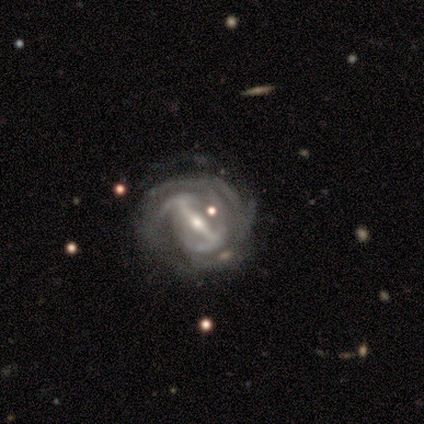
smooth-or-featured: featured or disk: 92% | star or artifact: 8% | smooth: 0%
  disk-edge-on: no: 92% | yes: 8%
    bar: strong: 82% | weak: 12% | no: 6%
    has-spiral-arms: yes: 91% | no: 9%
      spiral-winding: tight: 58% | medium: 26% | loose: 16%
      spiral-arm-count: can't tell: 52% | 2: 23% | 4: 16% | 3: 6% | 1: 3% | more than 4: 0%
    bulge-size: small: 65% | moderate: 29% | large: 6% | dominant: 0% | none: 0%
  merging: none: 59% | minor disturbance: 24% | major disturbance: 14% | merger: 3%